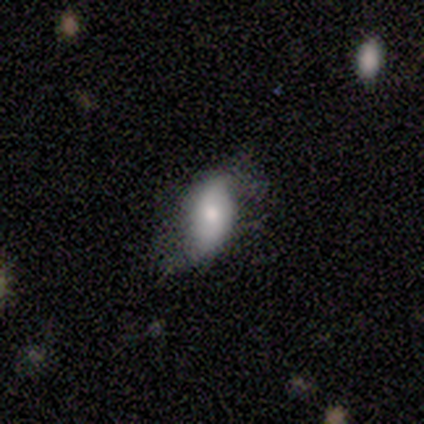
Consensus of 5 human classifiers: smooth_or_featured: smooth (p=0.80) [alt: featured or disk p=0.20]
how_rounded: in between (p=1.00)
merging: minor disturbance (p=0.60) [alt: none p=0.40]